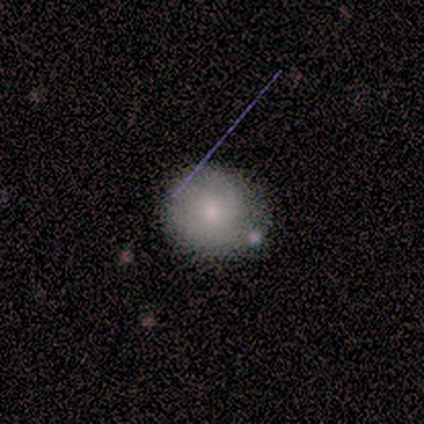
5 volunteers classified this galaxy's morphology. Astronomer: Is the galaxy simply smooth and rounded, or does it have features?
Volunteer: smooth — 80%.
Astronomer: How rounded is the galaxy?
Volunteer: round — 100%.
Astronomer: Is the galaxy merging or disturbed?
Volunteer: none — 100%.